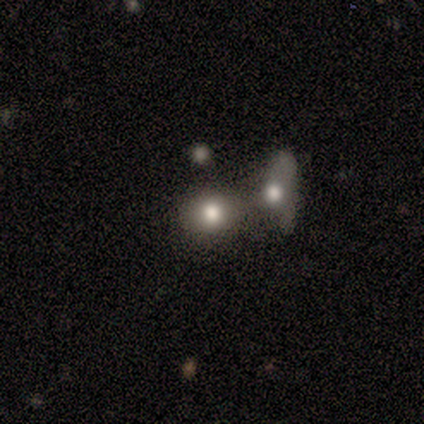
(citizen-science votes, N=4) smooth-or-featured: featured or disk: 75% | smooth: 25% | star or artifact: 0%
  disk-edge-on: no: 100% | yes: 0%
    bar: no: 100% | strong: 0% | weak: 0%
    has-spiral-arms: no: 100% | yes: 0%
    bulge-size: large: 67% | moderate: 33% | dominant: 0% | small: 0% | none: 0%
  merging: merger: 50% | none: 25% | minor disturbance: 25% | major disturbance: 0%